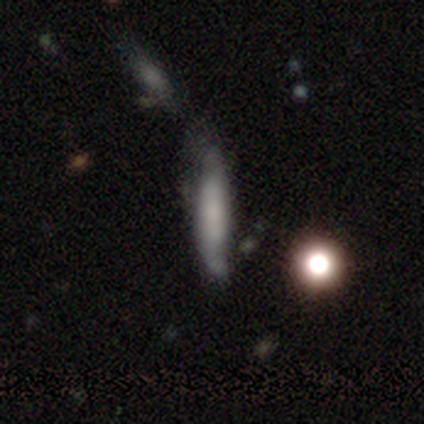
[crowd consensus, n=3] This appears to be a featured or disk galaxy (67%) viewed edge-on (50%, tied with no) with no central bulge (100%). Merging: none (67%).